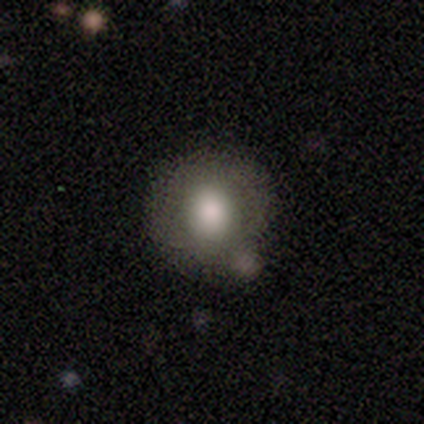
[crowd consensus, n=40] This appears to be a smooth galaxy with no disk features (72%) that is round (97%). Merging: none (50%).